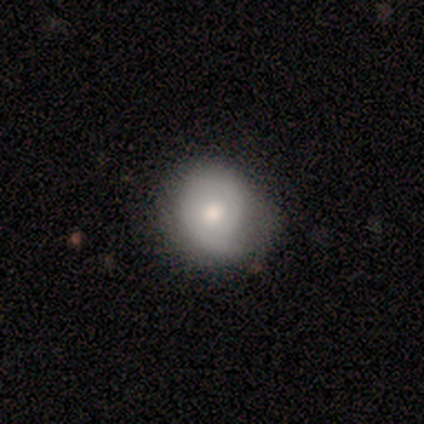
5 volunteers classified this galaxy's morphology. Overall: smooth (60%; featured or disk 40%). How rounded: round (100%). Merging: none (80%).